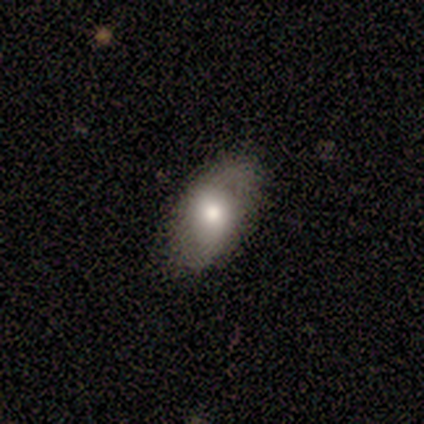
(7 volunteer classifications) smooth-or-featured: smooth: 71% | featured or disk: 14% | star or artifact: 14%
  how-rounded: in between: 100% | round: 0% | cigar-shaped: 0%
  merging: none: 83% | minor disturbance: 17% | major disturbance: 0% | merger: 0%